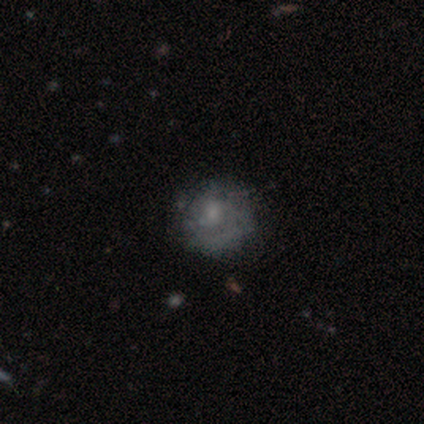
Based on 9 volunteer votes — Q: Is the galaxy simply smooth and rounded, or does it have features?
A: smooth — 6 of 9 (67%).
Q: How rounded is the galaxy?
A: round — 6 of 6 (100%).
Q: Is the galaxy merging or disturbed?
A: none — 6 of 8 (75%).